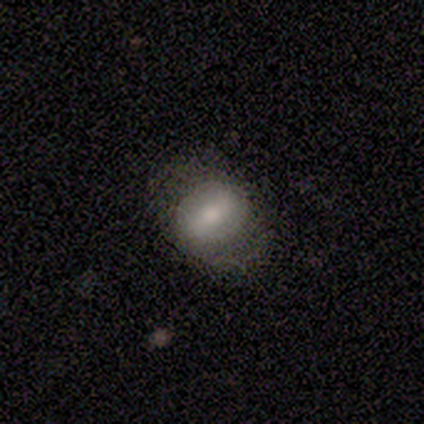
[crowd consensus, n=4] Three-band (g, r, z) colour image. It shows a smooth galaxy with no disk features (50%, tied with featured or disk) that is in between round and cigar-shaped (100%). Merging: none (50%).